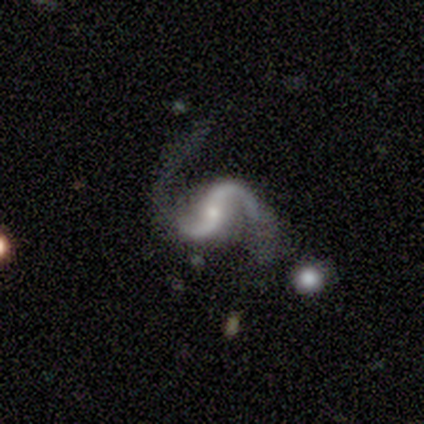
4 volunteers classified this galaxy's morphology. smooth_or_featured: featured or disk (p=1.00)
disk_edge_on: no (p=1.00)
bar: strong (p=0.50) [tied with: weak p=0.50]
has_spiral_arms: yes (p=1.00)
spiral_winding: tight (p=0.50) [tied with: loose p=0.50]
spiral_arm_count: 2 (p=1.00)
bulge_size: small (p=0.50) [alt: large p=0.25]
merging: none (p=0.50) [alt: minor disturbance p=0.25]